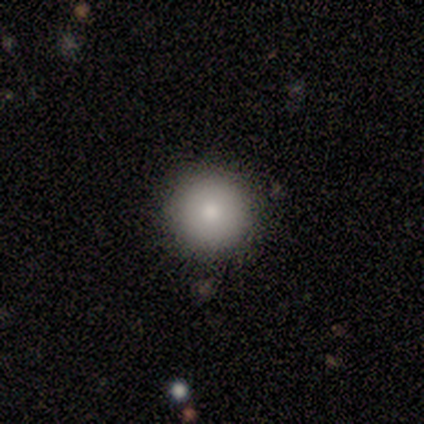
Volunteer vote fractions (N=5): Smooth or featured: smooth — 80% (featured or disk — 20%)
How rounded: round — 100%
Merging: none — 100%